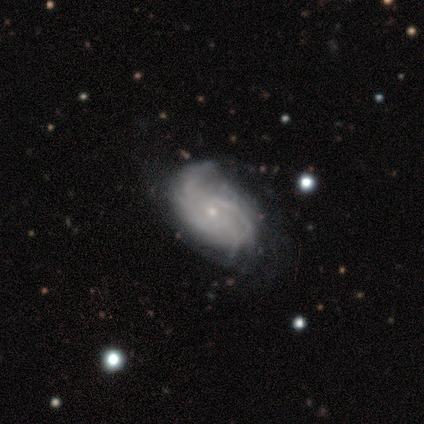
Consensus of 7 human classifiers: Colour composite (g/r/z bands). It shows a featured or disk galaxy (100%) with no bar (86%), tight (57%) spiral arms (100%) and a small central bulge (100%). Merging: none (86%).